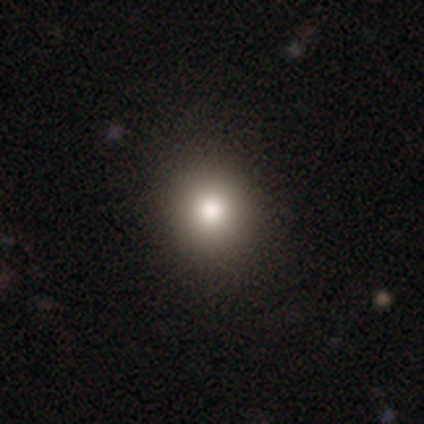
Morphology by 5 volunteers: This appears to be a smooth galaxy with no disk features (80%) that is round (75%). Merging: none (100%).